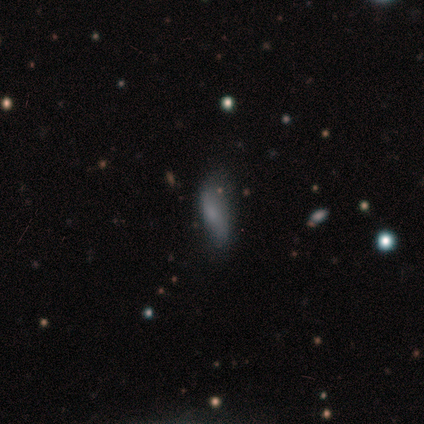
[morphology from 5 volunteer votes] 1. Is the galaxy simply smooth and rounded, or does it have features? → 60% smooth, 20% featured or disk, 20% star or artifact.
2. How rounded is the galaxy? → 67% in between, 33% cigar-shaped, 0% round.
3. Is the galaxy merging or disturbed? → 75% none, 25% major disturbance, 0% minor disturbance, 0% merger.